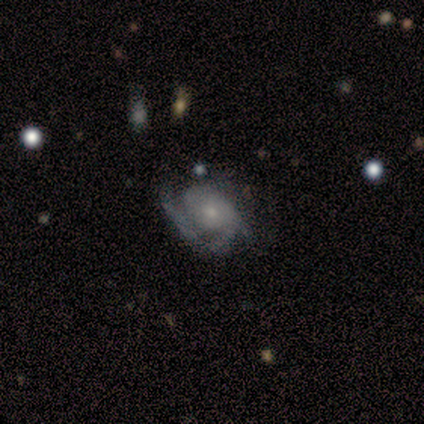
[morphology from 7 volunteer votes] type=featured or disk (100%); edge-on=no (100%); bar=no (86%); spiral arms=yes (86%); winding=tight (67%); arm count=1 (50%); bulge=small (86%); merging=none (43%, tied with minor disturbance).